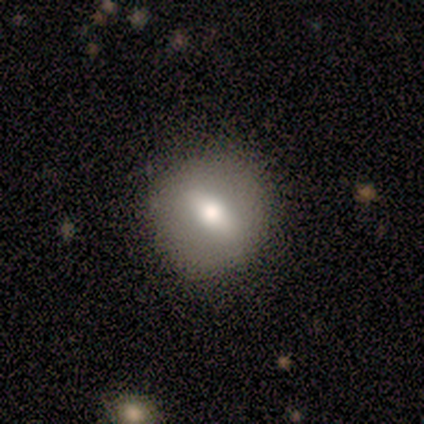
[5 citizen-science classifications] Overall: smooth (60%; featured or disk 40%). How rounded: in between (67%; round 33%). Merging: none (100%).